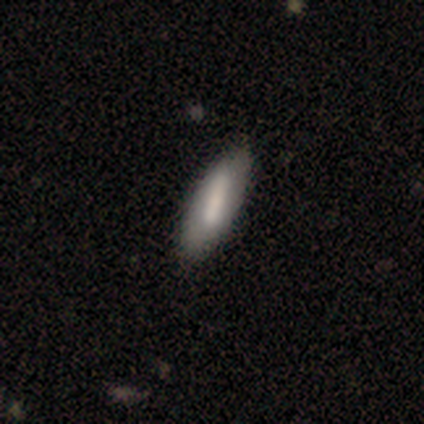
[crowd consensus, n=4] Q: Smooth or featured?
A: featured or disk (50%); runner-up: smooth (25%)
Q: Edge-on disk?
A: no (100%)
Q: Bar?
A: strong (50%); tied with: weak (50%)
Q: Spiral arms?
A: yes (100%)
Q: Spiral winding?
A: tight (50%); tied with: medium (50%)
Q: Spiral arm count?
A: 2 (50%); tied with: can't tell (50%)
Q: Bulge size?
A: dominant (50%); tied with: small (50%)
Q: Merging?
A: minor disturbance (67%); runner-up: major disturbance (33%)